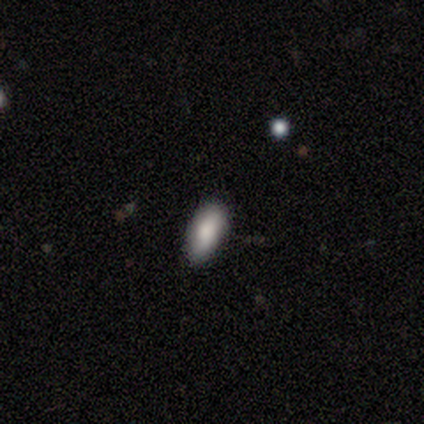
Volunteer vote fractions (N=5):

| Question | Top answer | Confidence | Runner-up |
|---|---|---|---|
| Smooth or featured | smooth | 80% | featured or disk (20%) |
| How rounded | in between | 100% | — |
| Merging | none | 80% | minor disturbance (20%) |